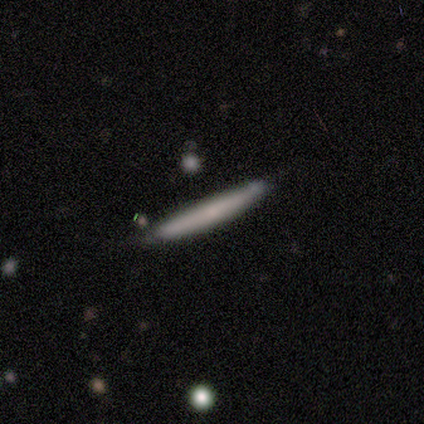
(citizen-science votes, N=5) Overall: smooth (60%; featured or disk 40%). How rounded: cigar-shaped (100%). Merging: none (60%; minor disturbance 40%).